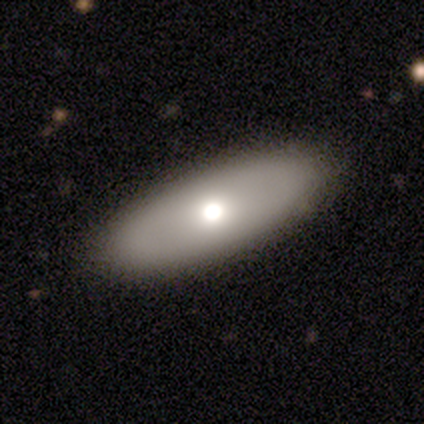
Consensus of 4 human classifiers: Smooth or featured: smooth — 100%
How rounded: in between — 100%
Merging: none — 75% (minor disturbance — 25%)